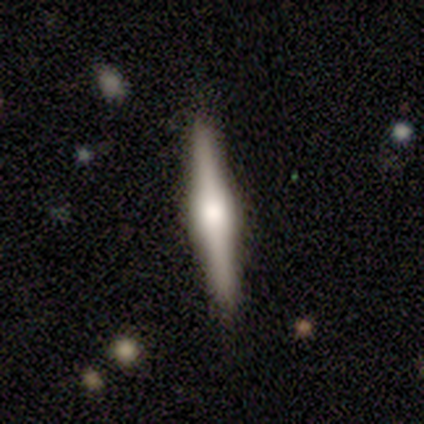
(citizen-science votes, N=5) featured or disk 100%, smooth 0%, star or artifact 0%. Down the decision tree: edge-on disk — yes (100%); edge-on bulge — rounded (60%); merging — none (80%).